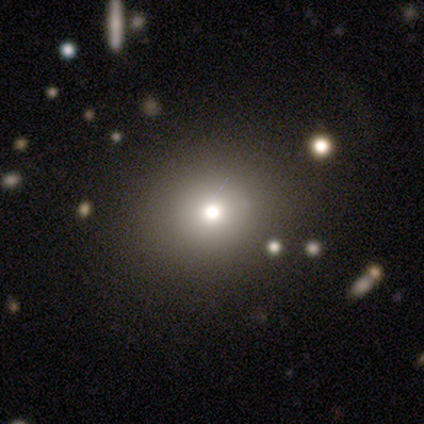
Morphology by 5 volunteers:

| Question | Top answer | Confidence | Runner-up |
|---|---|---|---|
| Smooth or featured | smooth | 80% | featured or disk (20%) |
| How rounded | round | 100% | — |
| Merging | none | 100% | — |